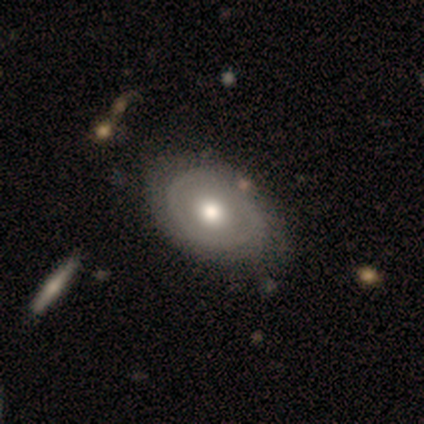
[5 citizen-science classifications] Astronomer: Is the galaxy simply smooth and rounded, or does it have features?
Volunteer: featured or disk — 100%.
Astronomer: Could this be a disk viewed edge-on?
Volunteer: no — 100%.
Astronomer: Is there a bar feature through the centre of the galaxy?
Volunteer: no — 80%.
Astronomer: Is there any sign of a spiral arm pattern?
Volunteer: no — 80%.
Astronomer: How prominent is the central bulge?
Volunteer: moderate — 60%.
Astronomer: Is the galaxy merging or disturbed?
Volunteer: none — 60%.